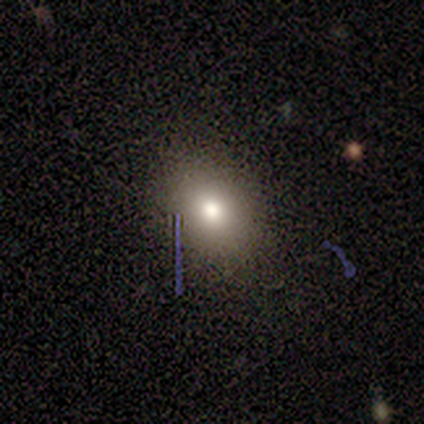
Smooth or featured? 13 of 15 (87%) said smooth. How rounded? 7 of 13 (54%) said in between. Merging? 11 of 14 (79%) said none.